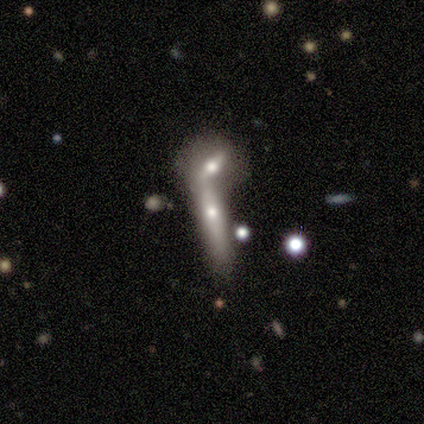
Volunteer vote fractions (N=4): This is likely a smooth galaxy (75%). How rounded: clearly cigar-shaped (100%). Merging: possibly none (50%, tied with merger).